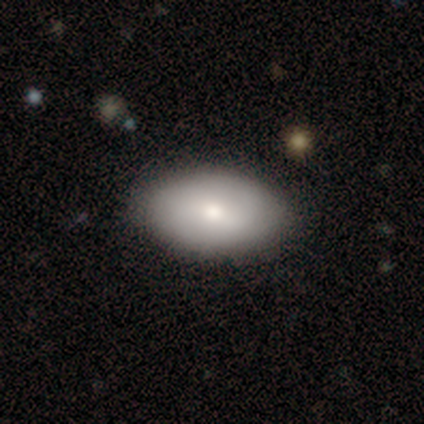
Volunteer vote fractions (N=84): Morphology: type=smooth (73%); roundness=in between (93%); merging=none (91%).